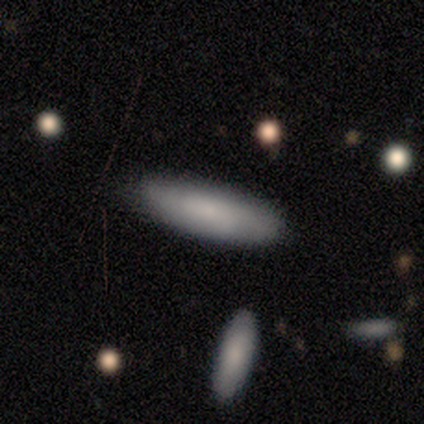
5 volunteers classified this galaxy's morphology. A smooth galaxy with no disk features (80%) that is in between round and cigar-shaped (50%, tied with cigar-shaped). Merging: none (100%).